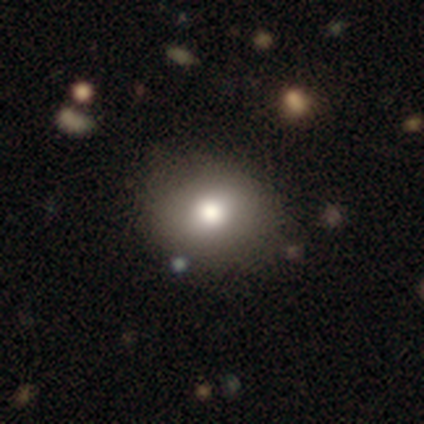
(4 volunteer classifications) smooth_or_featured: smooth (p=0.75) [alt: star or artifact p=0.25]
how_rounded: round (p=0.67) [alt: in between p=0.33]
merging: none (p=0.67) [alt: merger p=0.33]